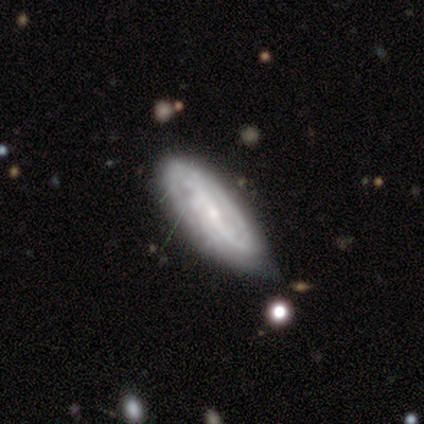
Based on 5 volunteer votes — Smooth or featured? 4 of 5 (80%) said featured or disk. Edge-on disk? 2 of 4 (50%, tied with no) said yes. Edge-on bulge? 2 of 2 (100%) said none. Merging? 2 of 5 (40%, tied with minor disturbance) said none.